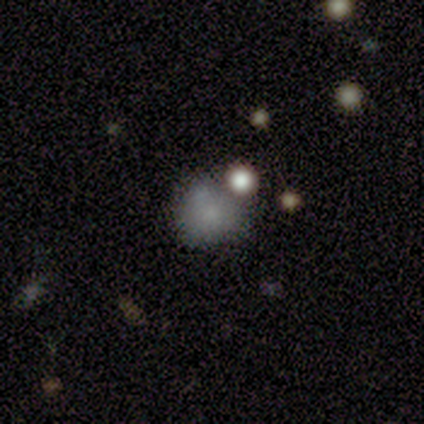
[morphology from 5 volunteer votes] A smooth galaxy with no disk features (100%) that is in between round and cigar-shaped (60%).

Vote fractions:
- Smooth or featured? smooth: 100% / featured or disk: 0% / star or artifact: 0%
- How rounded? in between: 60% / round: 40% / cigar-shaped: 0%
- Merging? merger: 40% / none: 20% / minor disturbance: 20% / major disturbance: 20%